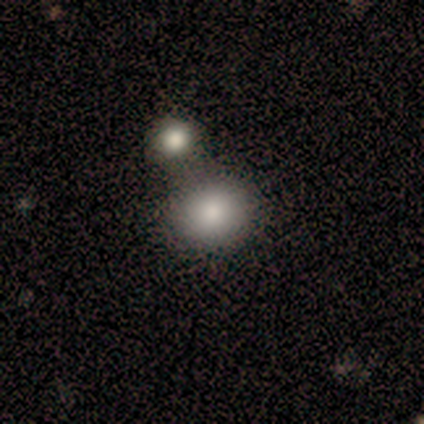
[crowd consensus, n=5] Overall: smooth (80%). How rounded: round (50%, tied with in between). Merging: merger (60%; none 40%).